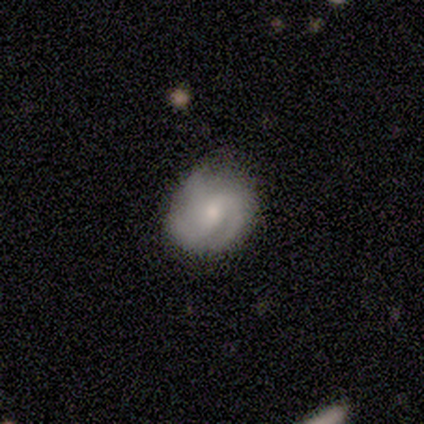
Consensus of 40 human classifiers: Morphology: type=featured or disk (72%); edge-on=no (100%); bar=weak (59%); spiral arms=yes (97%); winding=medium (61%); arm count=3 (68%); bulge=small (48%); merging=none (68%).